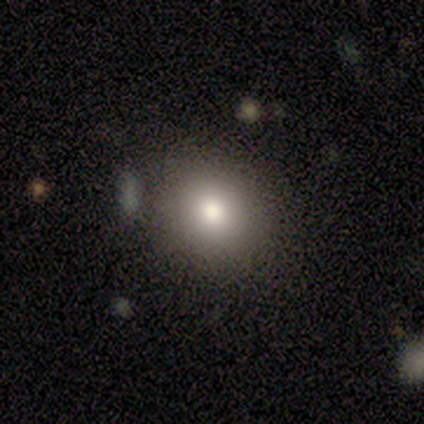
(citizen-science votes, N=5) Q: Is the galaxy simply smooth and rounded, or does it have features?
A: smooth — 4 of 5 (80%).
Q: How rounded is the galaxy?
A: round — 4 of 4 (100%).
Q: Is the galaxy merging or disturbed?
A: none — 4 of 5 (80%).